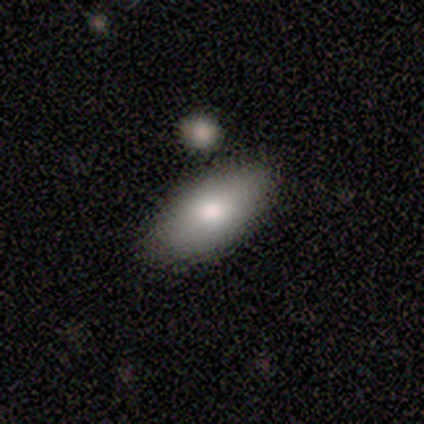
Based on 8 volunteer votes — smooth_or_featured: smooth (p=0.88) [alt: featured or disk p=0.12]
how_rounded: in between (p=1.00)
merging: none (p=0.88) [alt: minor disturbance p=0.12]